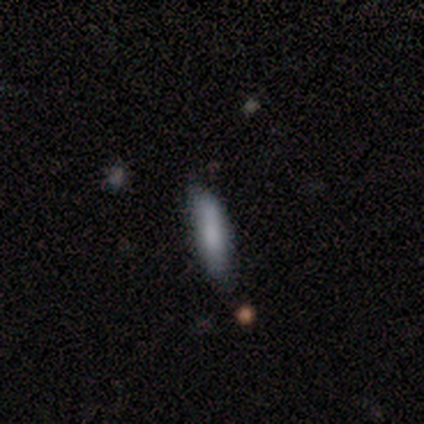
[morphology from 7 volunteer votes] Q: Smooth or featured?
A: smooth (100%)
Q: How rounded?
A: cigar-shaped (86%); runner-up: in between (14%)
Q: Merging?
A: none (71%); runner-up: minor disturbance (29%)